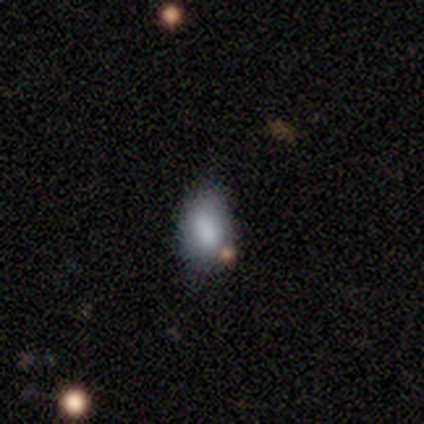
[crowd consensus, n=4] This is clearly a smooth galaxy (100%). How rounded: clearly in between (100%). Merging: likely none (75%).